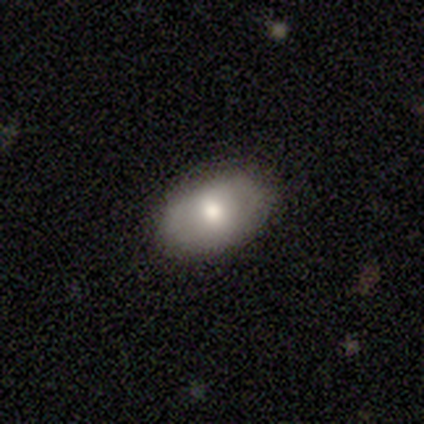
smooth_or_featured: smooth (p=0.60) [alt: featured or disk p=0.20]
how_rounded: in between (p=1.00)
merging: none (p=1.00)